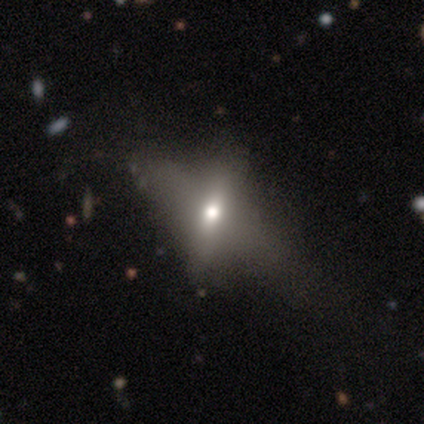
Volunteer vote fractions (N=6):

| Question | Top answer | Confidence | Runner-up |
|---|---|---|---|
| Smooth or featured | star or artifact | 50% | smooth (33%) |